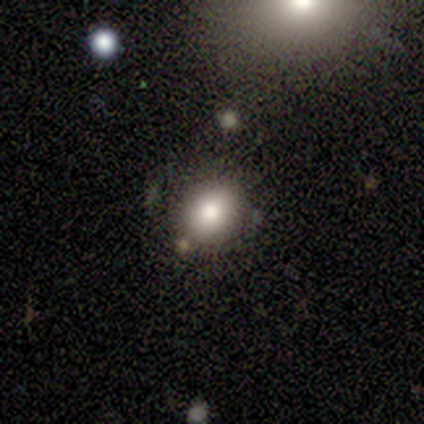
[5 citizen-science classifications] This is clearly a smooth galaxy (80%). How rounded: likely round (75%). Merging: likely none (75%).